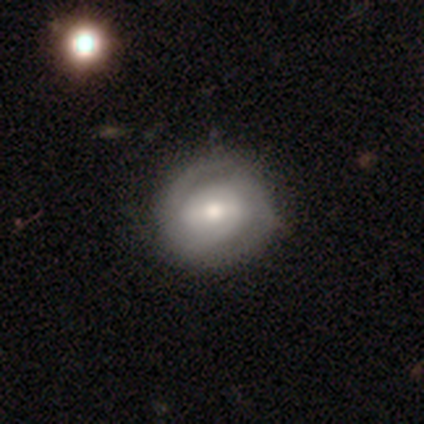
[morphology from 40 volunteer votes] Overall: featured or disk (70%; smooth 30%). Edge-on disk: no (100%). Bar: weak (46%; strong 36%). Spiral arms: yes (96%). Spiral arm count: 2 (81%). Spiral winding: tight (70%). Bulge size: moderate (64%; large 25%). Merging: none (57%).